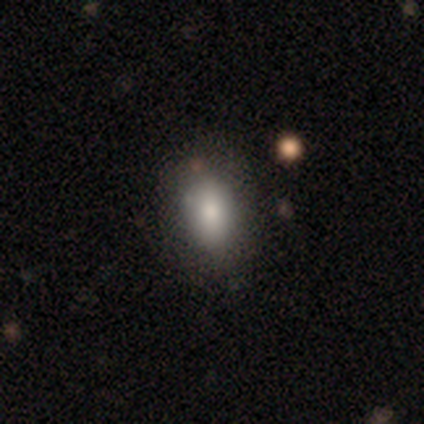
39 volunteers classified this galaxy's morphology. Smooth or featured? 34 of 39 (87%) said smooth. How rounded? 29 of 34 (85%) said in between. Merging? 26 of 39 (67%) said none.